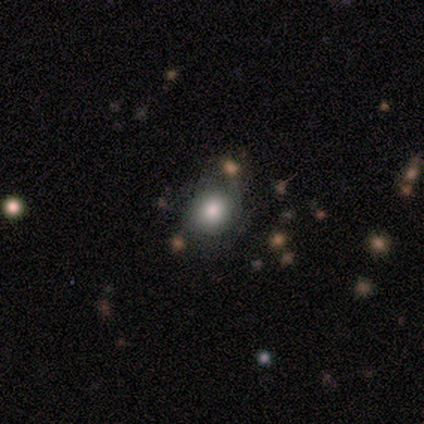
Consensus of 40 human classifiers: Smooth or featured? 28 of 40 (70%) said smooth. How rounded? 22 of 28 (79%) said round. Merging? 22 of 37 (59%) said none.